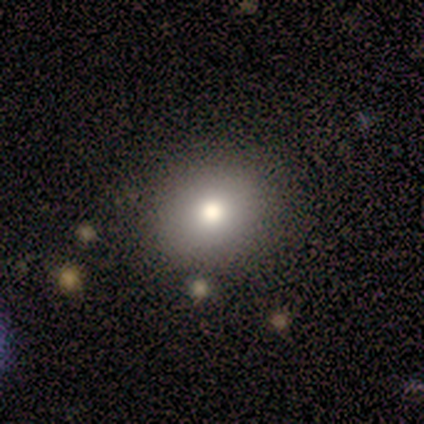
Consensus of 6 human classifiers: Volunteers were most divided on "how rounded": in between: 60%, round: 40%, cigar-shaped: 0%. More confident: smooth or featured — smooth (83%); merging — none (83%).